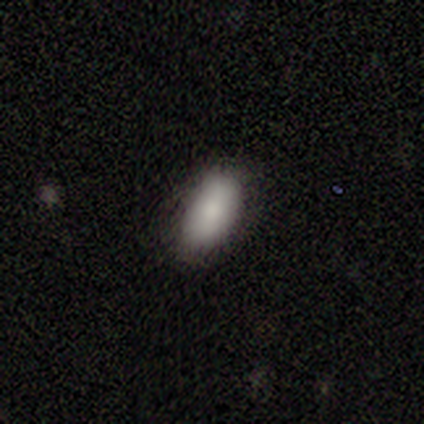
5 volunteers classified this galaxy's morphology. Overall: smooth (100%). How rounded: in between (100%). Merging: none (80%).